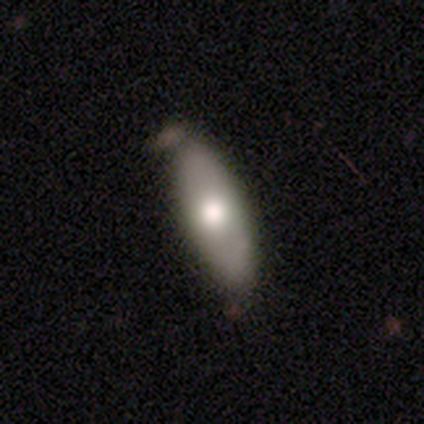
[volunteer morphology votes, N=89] Smooth or featured: smooth — 65% (featured or disk — 28%)
How rounded: in between — 57% (cigar-shaped — 41%)
Merging: none — 59% (minor disturbance — 36%)